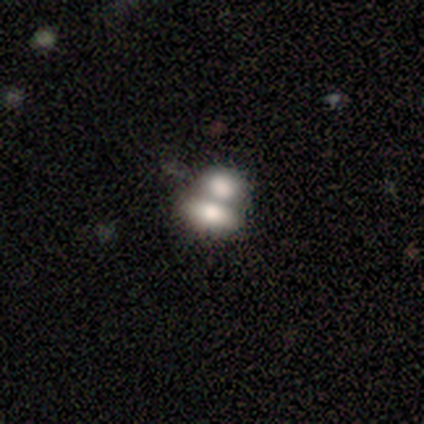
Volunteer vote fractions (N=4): Morphology: type=smooth (50%); roundness=round (50%, tied with in between); merging=none (33%, tied with major disturbance and merger).